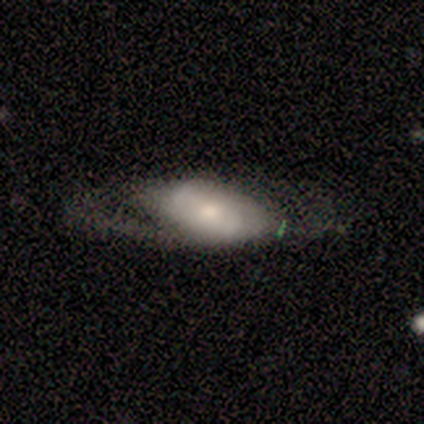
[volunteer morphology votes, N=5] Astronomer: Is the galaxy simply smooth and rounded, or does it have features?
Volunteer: featured or disk — 60% (runner-up: smooth, 40%).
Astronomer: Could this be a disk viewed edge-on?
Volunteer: yes — 100%.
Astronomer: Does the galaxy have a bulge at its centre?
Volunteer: rounded — 100%.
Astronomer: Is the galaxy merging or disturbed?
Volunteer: major disturbance — 60%.